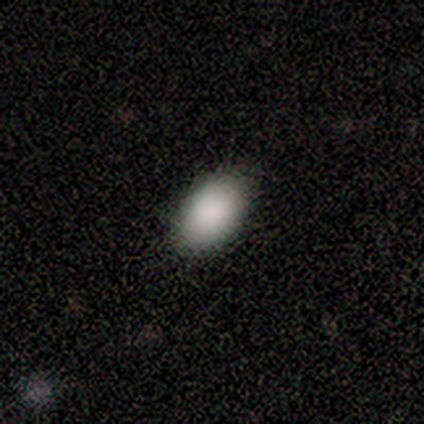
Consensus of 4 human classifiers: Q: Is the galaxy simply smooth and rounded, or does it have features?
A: smooth — 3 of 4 (75%).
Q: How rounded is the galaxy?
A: in between — 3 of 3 (100%).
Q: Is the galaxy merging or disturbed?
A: none — 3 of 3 (100%).